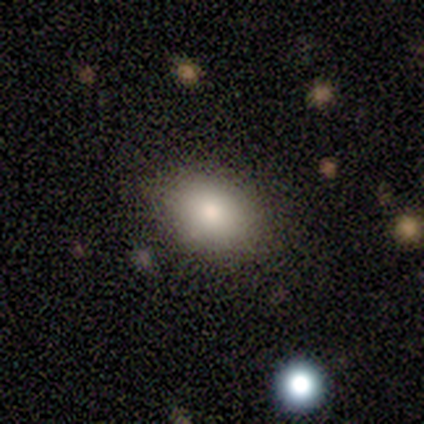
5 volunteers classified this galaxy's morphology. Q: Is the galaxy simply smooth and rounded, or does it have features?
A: smooth — 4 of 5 (80%).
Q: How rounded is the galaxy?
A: in between — 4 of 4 (100%).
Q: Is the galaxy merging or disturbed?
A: none — 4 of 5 (80%).